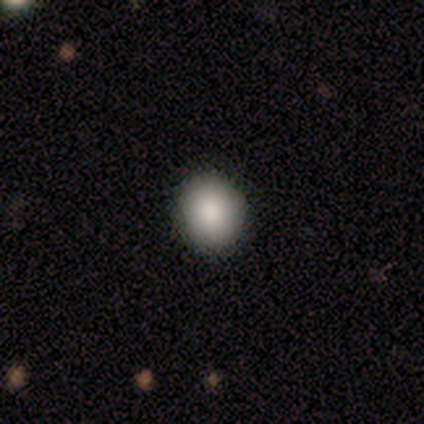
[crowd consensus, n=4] A smooth galaxy with no disk features (100%) that is in between round and cigar-shaped (75%). Merging: none (100%).